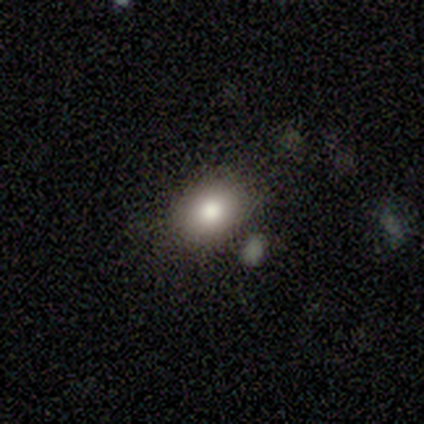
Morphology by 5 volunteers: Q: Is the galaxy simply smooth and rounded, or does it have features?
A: smooth — 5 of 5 (100%).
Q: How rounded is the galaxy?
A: in between — 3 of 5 (60%).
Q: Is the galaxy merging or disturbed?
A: none — 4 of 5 (80%).